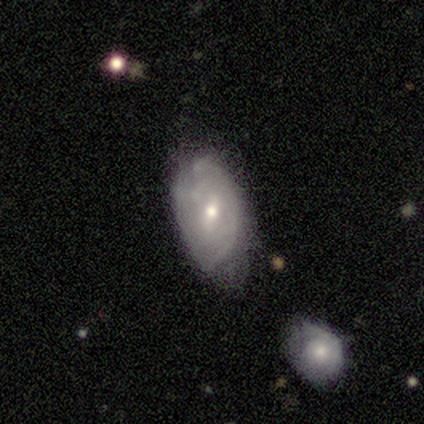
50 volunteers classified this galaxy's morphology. Smooth or featured: featured or disk — 48% (smooth — 42%)
Edge-on disk: no — 96% (yes — 4%)
Bar: weak — 70% (no — 22%)
Spiral arms: yes — 57% (no — 43%)
Spiral winding: tight — 54% (medium — 38%)
Spiral arm count: can't tell — 62% (2 — 38%)
Bulge size: moderate — 57% (small — 43%)
Merging: minor disturbance — 42% (none — 40%)